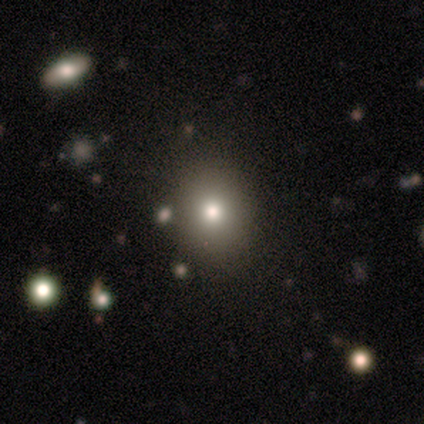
smooth_or_featured: smooth (p=0.67) [alt: star or artifact p=0.17]
how_rounded: round (p=0.69) [alt: in between p=0.31]
merging: none (p=0.80) [alt: minor disturbance p=0.10]